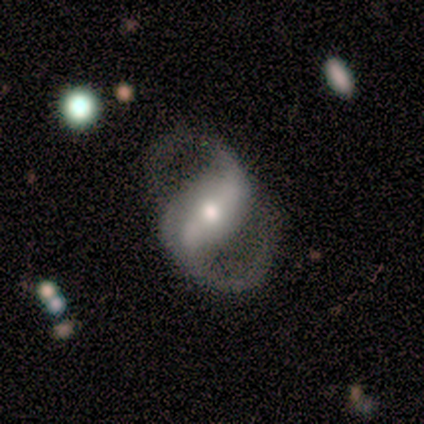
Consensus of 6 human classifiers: Smooth or featured?
  - featured or disk: 83% *
  - smooth: 17%
  - star or artifact: 0%
Edge-on disk?
  - no: 100% *
  - yes: 0%
Bar?
  - strong: 60% *
  - weak: 40%
  - no: 0%
Spiral arms?
  - yes: 100% *
  - no: 0%
Spiral winding?
  - medium: 80% *
  - loose: 20%
  - tight: 0%
Spiral arm count?
  - 2: 100% *
  - 1: 0%
  - 3: 0%
  - 4: 0%
  - more than 4: 0%
  - can't tell: 0%
Bulge size?
  - small: 60% *
  - moderate: 40%
  - dominant: 0%
  - large: 0%
  - none: 0%
Merging?
  - none: 100% *
  - minor disturbance: 0%
  - major disturbance: 0%
  - merger: 0%